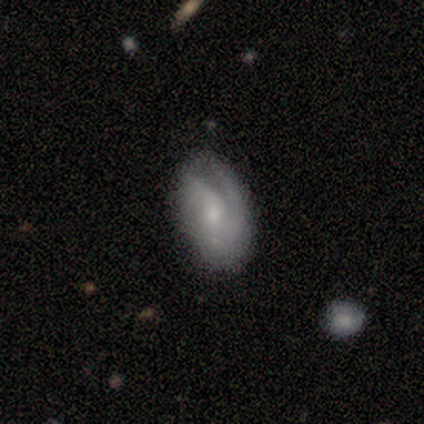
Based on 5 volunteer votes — Smooth or featured: featured or disk — 60% (smooth — 20%)
Edge-on disk: no — 100%
Bar: no — 67% (weak — 33%)
Spiral arms: yes — 67% (no — 33%)
Spiral winding: tight — 100%
Spiral arm count: 1 — 50% (tied with can't tell — 50%)
Bulge size: small — 100%
Merging: none — 75% (merger — 25%)